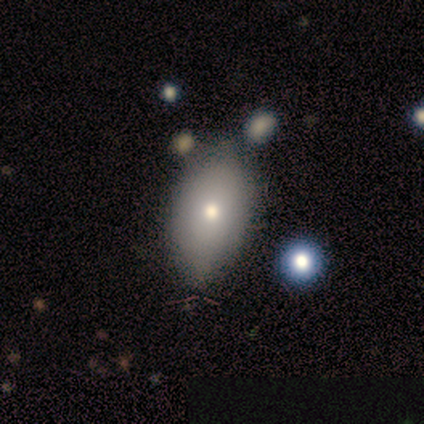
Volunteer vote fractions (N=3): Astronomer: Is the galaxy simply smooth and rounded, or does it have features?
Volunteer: smooth — 100%.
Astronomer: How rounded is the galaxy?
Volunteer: in between — 100%.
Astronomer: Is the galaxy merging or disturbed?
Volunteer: none — 67%.